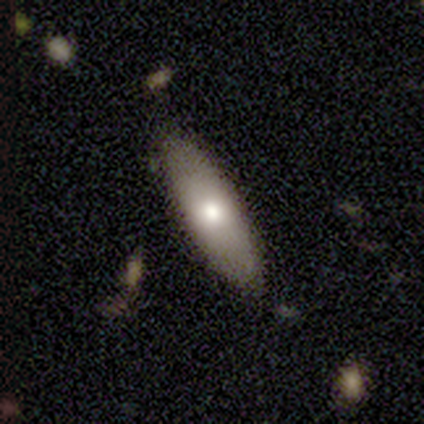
Smooth or featured: smooth — 60% (featured or disk — 40%)
How rounded: in between — 67% (cigar-shaped — 33%)
Merging: none — 100%